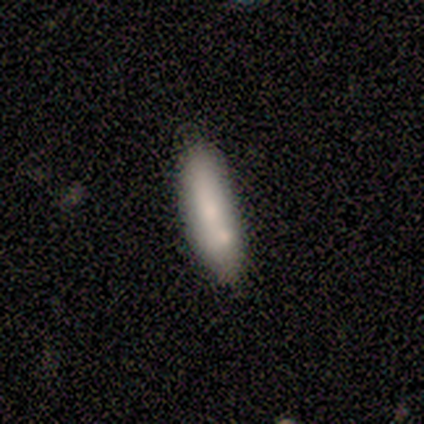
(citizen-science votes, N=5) This appears to be a smooth galaxy with no disk features (100%) that is cigar-shaped (80%). Merging: merger (80%).